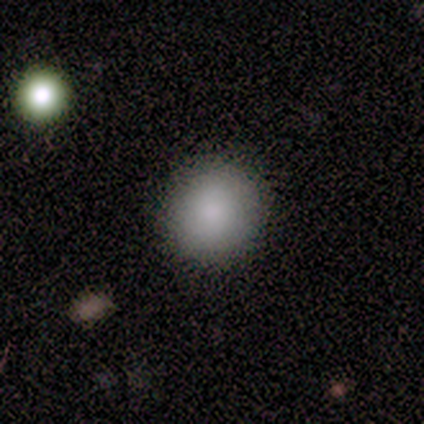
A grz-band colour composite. It shows a smooth galaxy with no disk features (60%) that is round (67%). Merging: none (67%).